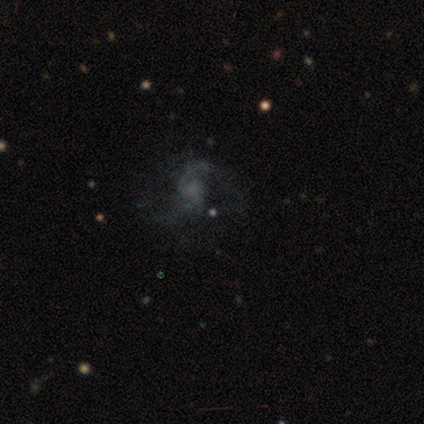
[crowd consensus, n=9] Smooth or featured? 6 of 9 (67%) said featured or disk. Edge-on disk? 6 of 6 (100%) said no. Bar? 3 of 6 (50%, tied with no) said weak. Spiral arms? 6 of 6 (100%) said yes. Spiral winding? 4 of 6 (67%) said medium. Spiral arm count? 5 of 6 (83%) said 2. Bulge size? 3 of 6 (50%) said small. Merging? 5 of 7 (71%) said none.